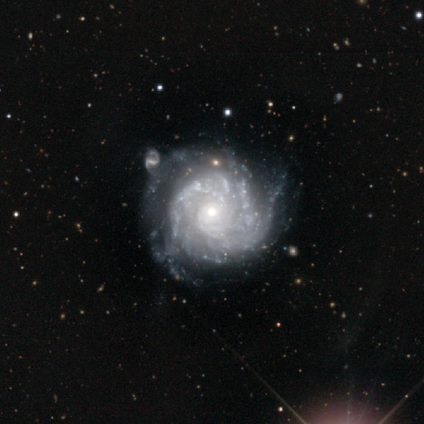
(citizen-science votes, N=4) smooth_or_featured: featured or disk (p=1.00)
disk_edge_on: no (p=1.00)
bar: no (p=0.75) [alt: weak p=0.25]
has_spiral_arms: yes (p=0.75) [alt: no p=0.25]
spiral_winding: tight (p=0.67) [alt: medium p=0.33]
spiral_arm_count: 3 (p=0.67) [alt: can't tell p=0.33]
bulge_size: small (p=0.75) [alt: moderate p=0.25]
merging: none (p=0.50) [tied with: merger p=0.50]